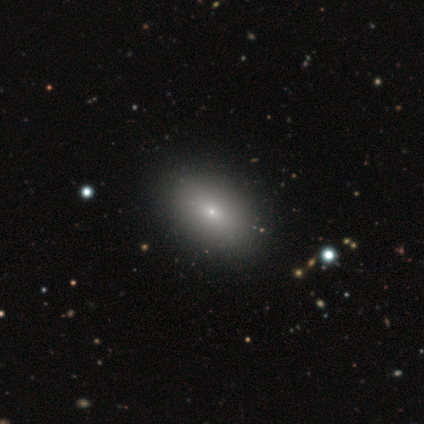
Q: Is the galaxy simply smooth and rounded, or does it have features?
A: smooth — 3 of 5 (60%).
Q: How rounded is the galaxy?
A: in between — 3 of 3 (100%).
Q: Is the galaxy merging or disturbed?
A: none — 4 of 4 (100%).